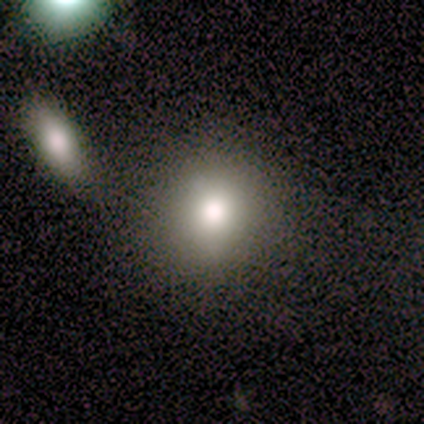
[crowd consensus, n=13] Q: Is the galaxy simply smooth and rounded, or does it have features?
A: smooth — 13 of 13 (100%).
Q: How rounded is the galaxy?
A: round — 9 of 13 (69%).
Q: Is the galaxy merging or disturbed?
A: none — 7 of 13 (54%).